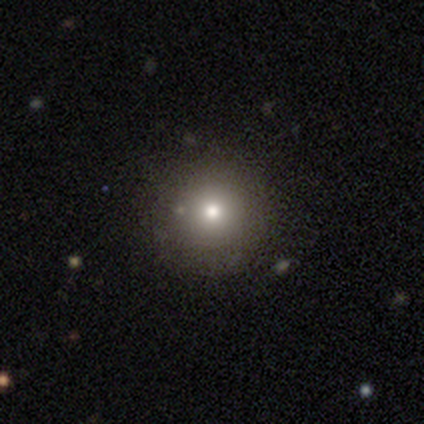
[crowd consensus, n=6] This appears to be a smooth galaxy with no disk features (83%) that is round (80%). Merging: none (60%).